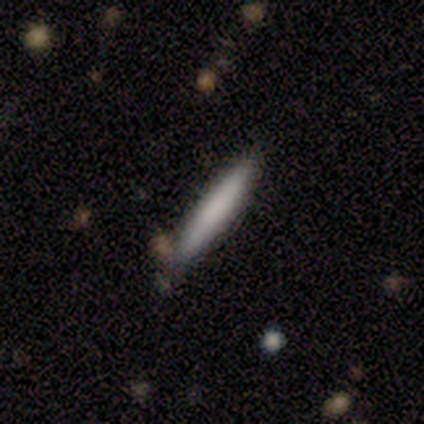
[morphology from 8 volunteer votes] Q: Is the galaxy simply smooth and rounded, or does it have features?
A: smooth — 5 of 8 (62%).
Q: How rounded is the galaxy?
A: cigar-shaped — 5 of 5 (100%).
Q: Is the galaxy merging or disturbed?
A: none — 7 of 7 (100%).